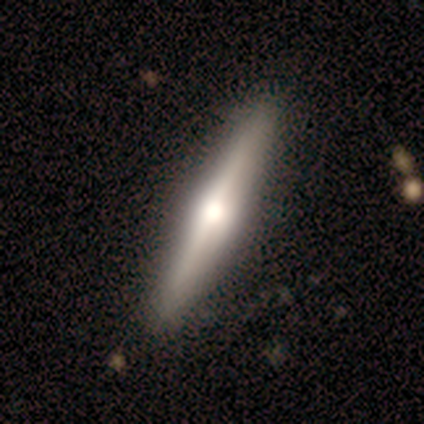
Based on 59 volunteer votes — smooth_or_featured: featured or disk (p=0.73) [alt: smooth p=0.25]
disk_edge_on: yes (p=0.98) [alt: no p=0.02]
edge_on_bulge: rounded (p=0.93) [alt: none p=0.05]
merging: none (p=0.88) [alt: minor disturbance p=0.09]